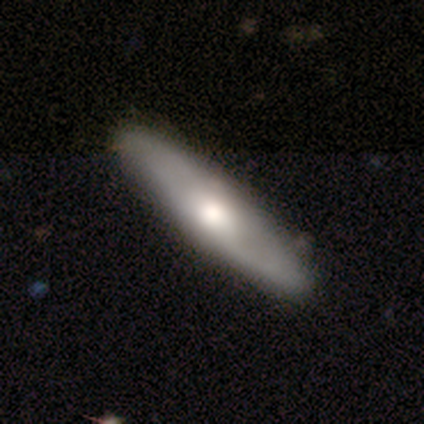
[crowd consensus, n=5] Volunteers were most divided on "bulge size" (3-way tie): dominant: 33%, large: 33%, moderate: 33%, small: 0%, none: 0%. More confident: bar — no (100%); smooth or featured — featured or disk (80%); edge-on disk — no (75%); spiral arms — no (67%); merging — none (60%).